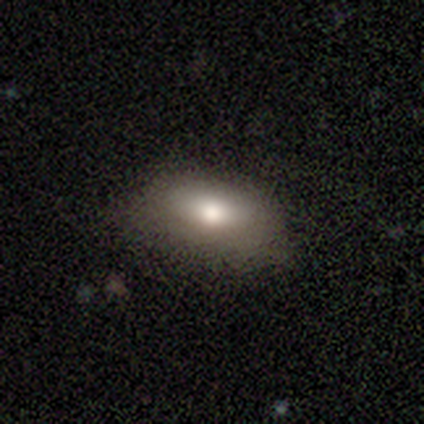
A smooth galaxy with no disk features (92%) that is in between round and cigar-shaped (89%).

Vote fractions:
- Smooth or featured? smooth: 92% / featured or disk: 8% / star or artifact: 0%
- How rounded? in between: 89% / round: 6% / cigar-shaped: 6%
- Merging? none: 71% / minor disturbance: 24% / major disturbance: 5% / merger: 0%